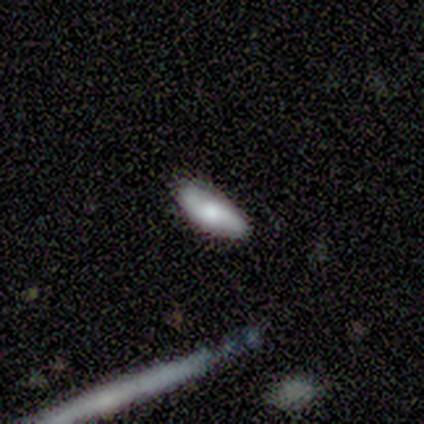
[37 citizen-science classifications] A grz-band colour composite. It shows a smooth galaxy with no disk features (70%) that is in between round and cigar-shaped (88%). Merging: none (63%).